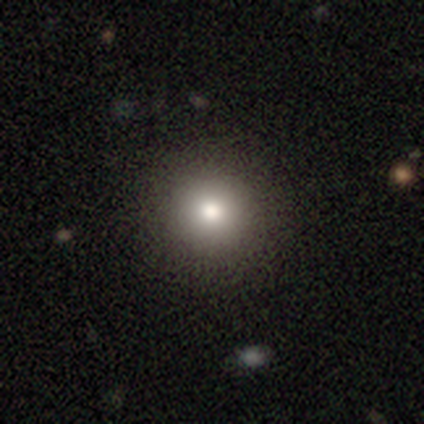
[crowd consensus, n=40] Smooth or featured: smooth — 80% (star or artifact — 18%)
How rounded: round — 97% (in between — 3%)
Merging: none — 58% (minor disturbance — 3%)